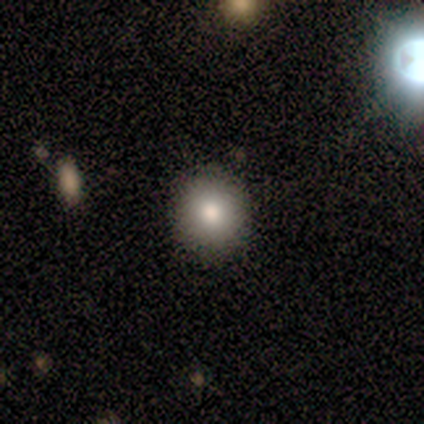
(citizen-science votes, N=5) Smooth or featured? 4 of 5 (80%) said smooth. How rounded? 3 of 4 (75%) said round. Merging? 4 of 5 (80%) said none.